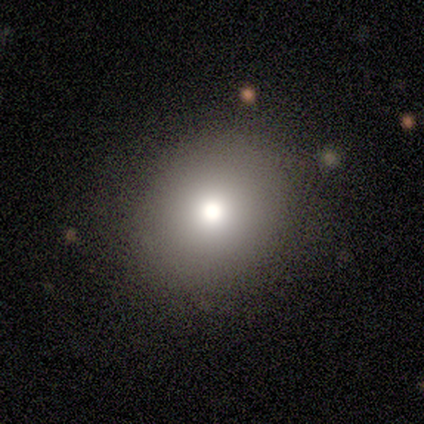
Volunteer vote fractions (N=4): Smooth or featured? 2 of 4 (50%) said smooth. How rounded? 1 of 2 (50%, tied with in between) said round. Merging? 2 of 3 (67%) said none.